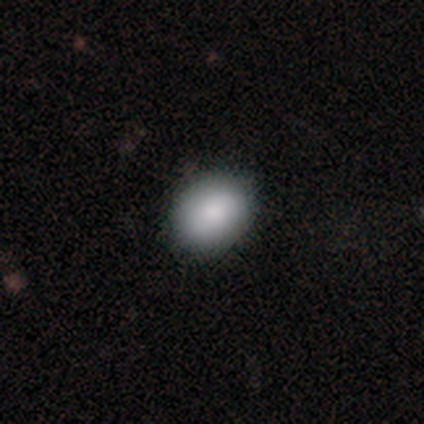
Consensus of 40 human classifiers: A smooth galaxy with no disk features (88%) that is in between round and cigar-shaped (60%). Merging: none (78%).